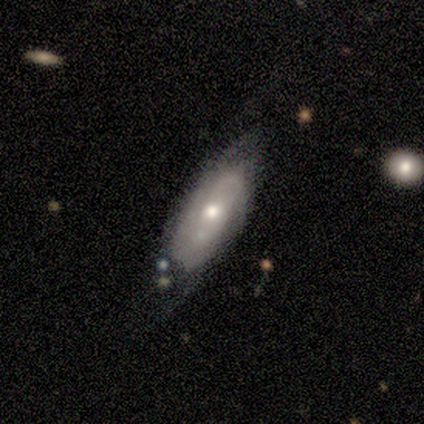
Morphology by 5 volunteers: Smooth or featured? smooth (60%)
How rounded? in between (100%)
Merging? none (60%)